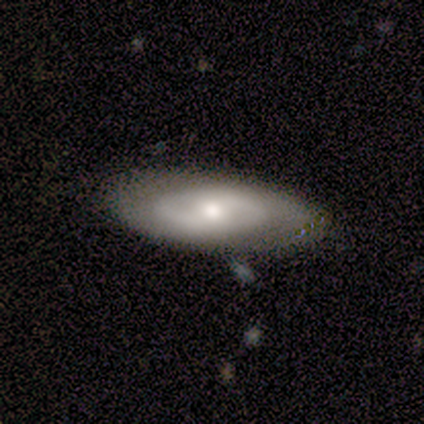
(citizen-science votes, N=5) Smooth or featured?
  - featured or disk: 60% *
  - smooth: 40%
  - star or artifact: 0%
Edge-on disk?
  - no: 67% *
  - yes: 33%
Bar?
  - weak: 100% *
  - strong: 0%
  - no: 0%
Spiral arms?
  - yes: 50% * (tied)
  - no: 50% * (tied)
Spiral winding?
  - medium: 100% *
  - tight: 0%
  - loose: 0%
Spiral arm count?
  - 2: 100% *
  - 1: 0%
  - 3: 0%
  - 4: 0%
  - more than 4: 0%
  - can't tell: 0%
Bulge size?
  - moderate: 50% * (tied)
  - none: 50% * (tied)
  - dominant: 0%
  - large: 0%
  - small: 0%
Merging?
  - none: 40% * (tied)
  - minor disturbance: 40% * (tied)
  - major disturbance: 20%
  - merger: 0%